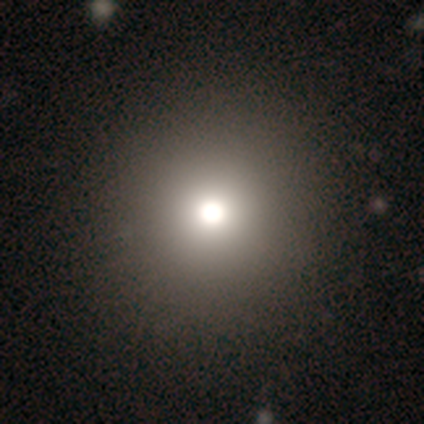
smooth-or-featured: smooth: 80% | star or artifact: 20% | featured or disk: 0%
  how-rounded: round: 100% | in between: 0% | cigar-shaped: 0%
  merging: none: 100% | minor disturbance: 0% | major disturbance: 0% | merger: 0%